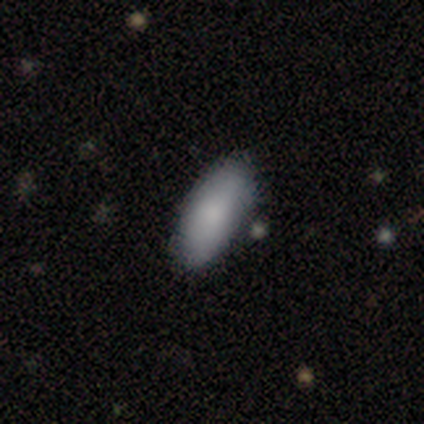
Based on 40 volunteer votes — A smooth galaxy with no disk features (88%) that is in between round and cigar-shaped (89%).

Vote fractions:
- Smooth or featured? smooth: 88% / featured or disk: 10% / star or artifact: 2%
- How rounded? in between: 89% / cigar-shaped: 11% / round: 0%
- Merging? none: 74% / minor disturbance: 23% / merger: 3% / major disturbance: 0%